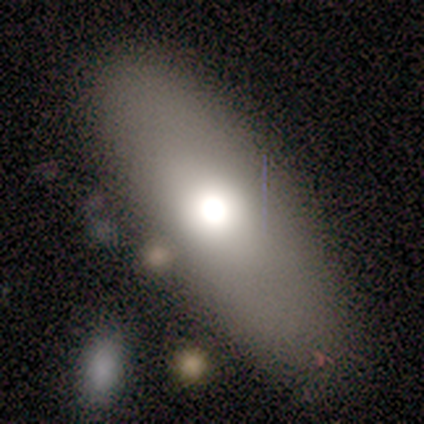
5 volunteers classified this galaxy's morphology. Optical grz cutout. It shows a smooth galaxy with no disk features (80%) that is cigar-shaped (75%). Merging: none (80%).